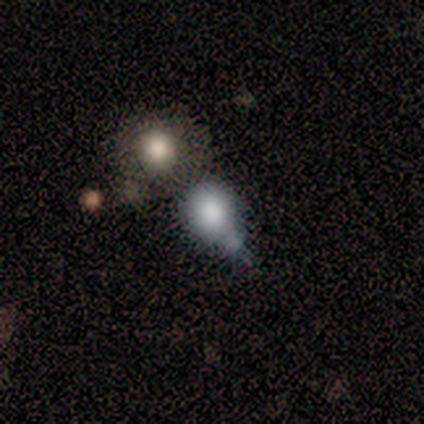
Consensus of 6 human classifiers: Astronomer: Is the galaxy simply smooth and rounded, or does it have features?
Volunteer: smooth — 67%.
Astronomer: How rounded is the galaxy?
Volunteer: round — 75%.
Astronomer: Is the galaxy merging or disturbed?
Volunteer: merger — 67%.